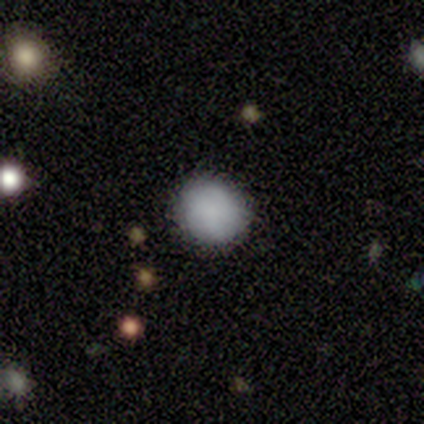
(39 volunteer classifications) Smooth or featured? 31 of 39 (79%) said smooth. How rounded? 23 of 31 (74%) said round. Merging? 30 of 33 (91%) said none.